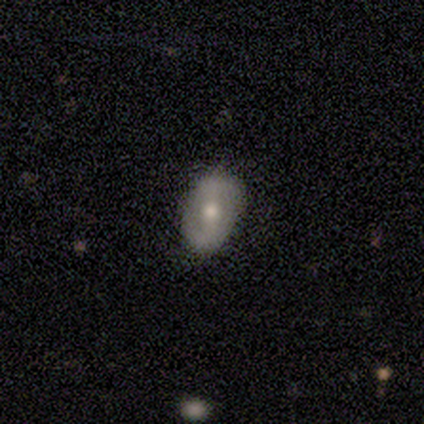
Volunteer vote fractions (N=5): A smooth galaxy with no disk features (80%) that is in between round and cigar-shaped (100%).

Vote fractions:
- Smooth or featured? smooth: 80% / featured or disk: 20% / star or artifact: 0%
- How rounded? in between: 100% / round: 0% / cigar-shaped: 0%
- Merging? none: 80% / minor disturbance: 20% / major disturbance: 0% / merger: 0%